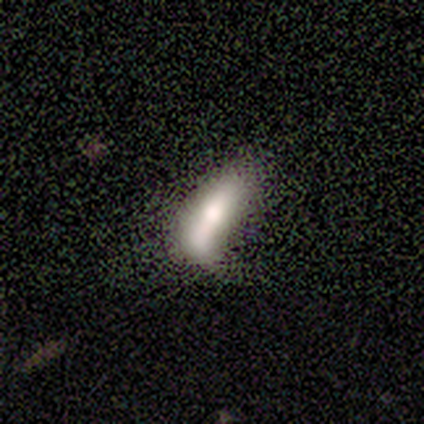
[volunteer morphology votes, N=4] Volunteers were most divided on "merging" (3-way tie): minor disturbance: 33%, major disturbance: 33%, merger: 33%, none: 0%. More confident: how rounded — in between (100%); smooth or featured — smooth (50%).